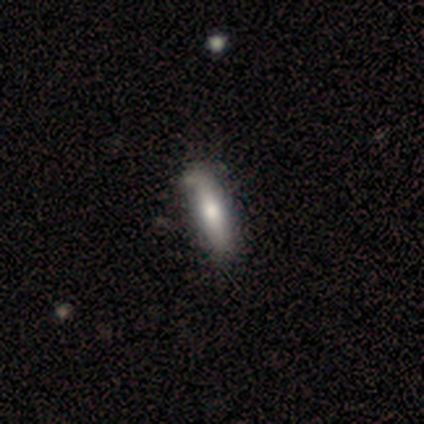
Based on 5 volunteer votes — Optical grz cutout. It shows a smooth galaxy with no disk features (80%) that is in between round and cigar-shaped (50%, tied with cigar-shaped). Merging: none (80%).